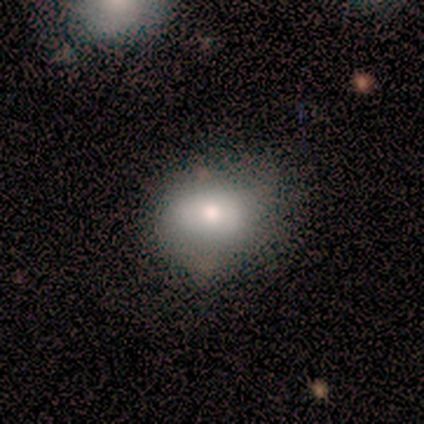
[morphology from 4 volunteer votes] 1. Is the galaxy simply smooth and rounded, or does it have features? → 100% smooth, 0% featured or disk, 0% star or artifact.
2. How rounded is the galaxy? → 50% round (tied), 50% in between (tied), 0% cigar-shaped.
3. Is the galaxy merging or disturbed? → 50% none (tied), 50% minor disturbance (tied), 0% major disturbance, 0% merger.